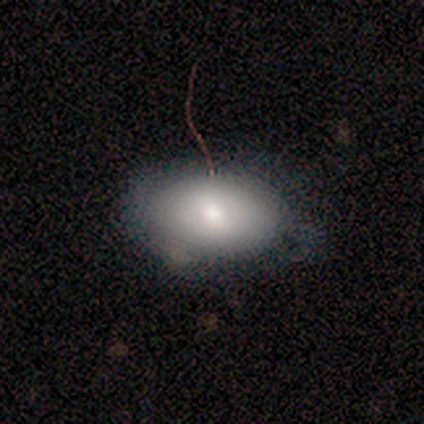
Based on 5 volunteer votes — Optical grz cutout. It shows a smooth galaxy with no disk features (60%) that is in between round and cigar-shaped (67%). Merging: none (80%).